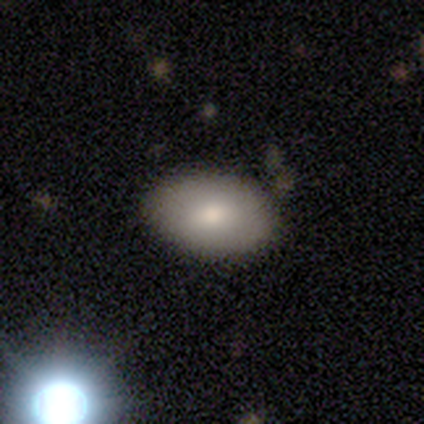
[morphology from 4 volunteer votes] Smooth or featured?
  - smooth: 75% *
  - featured or disk: 25%
  - star or artifact: 0%
How rounded?
  - in between: 100% *
  - round: 0%
  - cigar-shaped: 0%
Merging?
  - none: 100% *
  - minor disturbance: 0%
  - major disturbance: 0%
  - merger: 0%